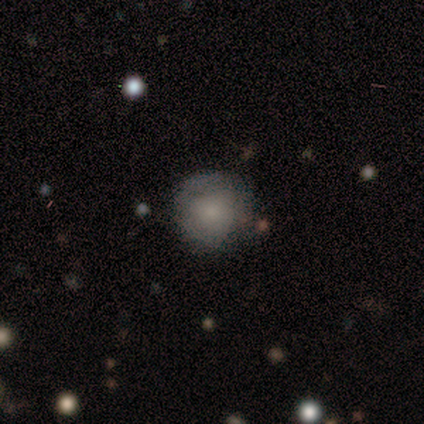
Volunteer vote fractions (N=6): Q: Smooth or featured?
A: smooth (67%); runner-up: featured or disk (17%)
Q: How rounded?
A: round (100%)
Q: Merging?
A: none (60%); runner-up: minor disturbance (20%)